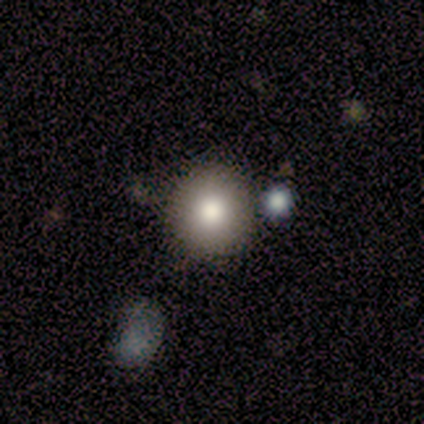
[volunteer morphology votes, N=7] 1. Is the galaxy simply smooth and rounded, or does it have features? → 100% smooth, 0% featured or disk, 0% star or artifact.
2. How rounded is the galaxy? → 100% round, 0% in between, 0% cigar-shaped.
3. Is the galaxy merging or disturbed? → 86% none, 14% minor disturbance, 0% major disturbance, 0% merger.